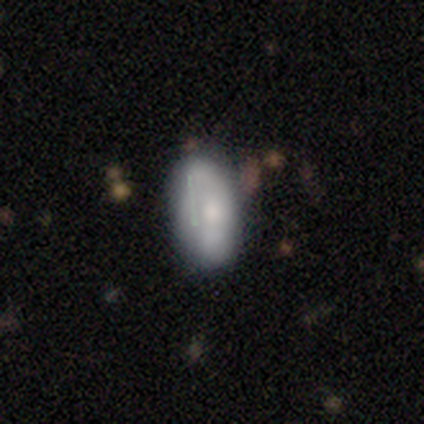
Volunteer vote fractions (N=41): A smooth galaxy with no disk features (66%) that is in between round and cigar-shaped (81%). Merging: none (72%).